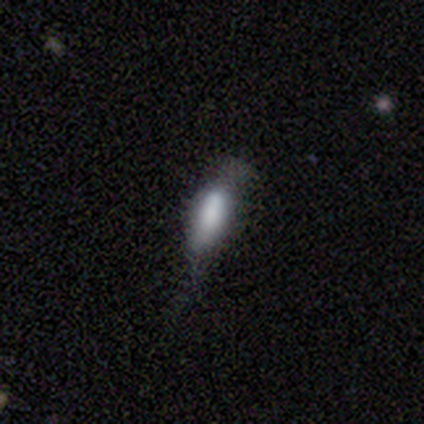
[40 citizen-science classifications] A smooth galaxy with no disk features (85%) that is in between round and cigar-shaped (56%).

Vote fractions:
- Smooth or featured? smooth: 85% / featured or disk: 10% / star or artifact: 5%
- How rounded? in between: 56% / cigar-shaped: 44% / round: 0%
- Merging? minor disturbance: 26% / none: 24% / major disturbance: 18% / merger: 0%